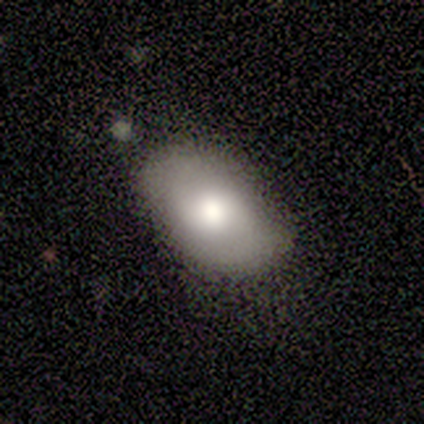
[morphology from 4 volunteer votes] This is possibly a smooth galaxy (50%, tied with featured or disk). How rounded: clearly in between (100%). Merging: clearly none (100%).